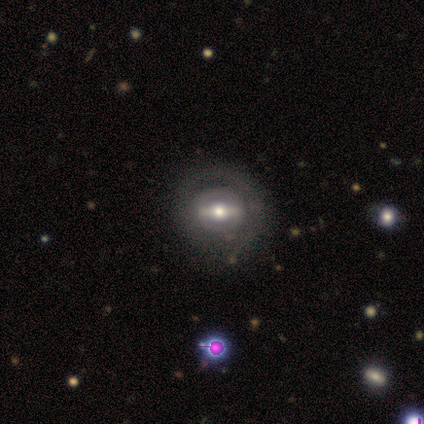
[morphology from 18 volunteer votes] This is likely a featured or disk galaxy (67%). It is clearly not viewed edge-on (92%). Bar: clearly strong (82%). Spiral arm pattern: likely no (73%). Central bulge: likely moderate (73%). Merging: possibly none (59%).